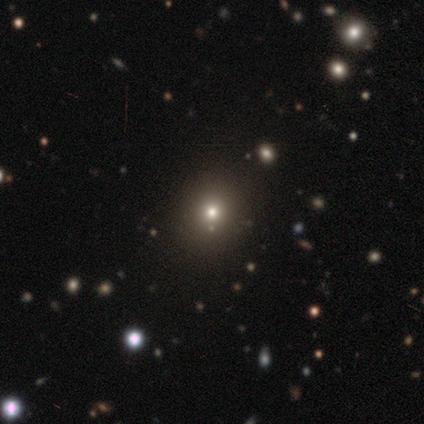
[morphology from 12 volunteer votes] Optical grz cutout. It shows a smooth galaxy with no disk features (50%) that is round (50%, tied with in between). Merging: none (70%).